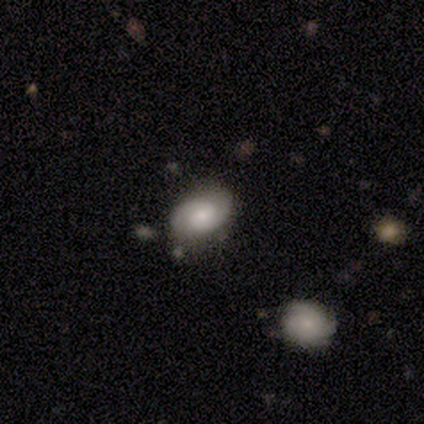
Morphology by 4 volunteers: This appears to be a smooth galaxy with no disk features (75%) that is in between round and cigar-shaped (100%). Merging: none (75%).